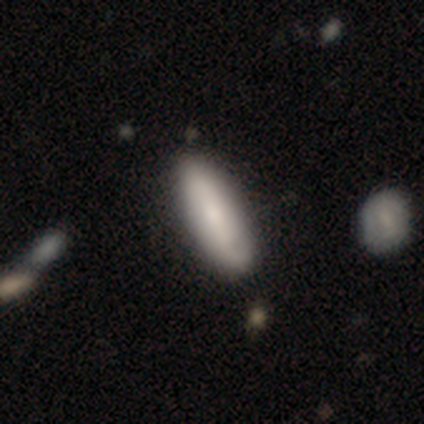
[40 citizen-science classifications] Smooth or featured?
  - smooth: 57% *
  - featured or disk: 38%
  - star or artifact: 5%
How rounded?
  - cigar-shaped: 52% *
  - in between: 48%
  - round: 0%
Merging?
  - none: 84% *
  - minor disturbance: 13%
  - merger: 3%
  - major disturbance: 0%